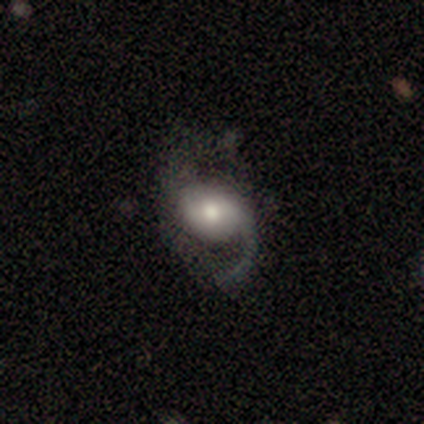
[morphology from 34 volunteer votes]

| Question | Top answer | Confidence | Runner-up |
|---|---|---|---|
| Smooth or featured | featured or disk | 82% | smooth (15%) |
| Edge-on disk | no | 100% | — |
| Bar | no | 39% | weak (32%) |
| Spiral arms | yes | 96% | no (4%) |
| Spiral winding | loose | 81% | medium (15%) |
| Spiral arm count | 2 | 52% | 1 (44%) |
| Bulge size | moderate | 57% | large (21%) |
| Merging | none | 55% | major disturbance (33%) |